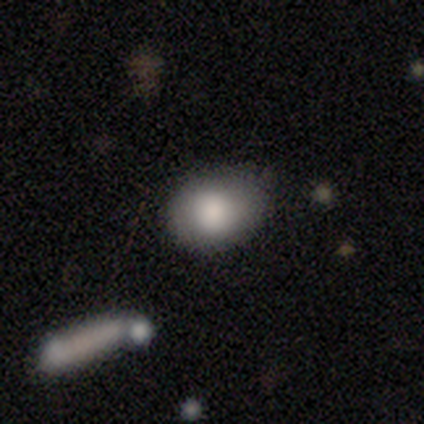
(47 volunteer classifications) Overall: smooth (91%). How rounded: in between (56%; round 44%). Merging: none (77%).